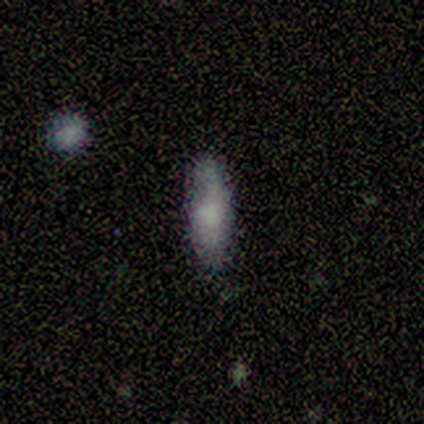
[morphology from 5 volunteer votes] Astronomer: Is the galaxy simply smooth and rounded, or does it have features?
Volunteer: smooth — 60% (runner-up: star or artifact, 40%).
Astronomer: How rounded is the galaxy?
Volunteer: in between — 67%.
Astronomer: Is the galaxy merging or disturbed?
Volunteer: none — 100%.